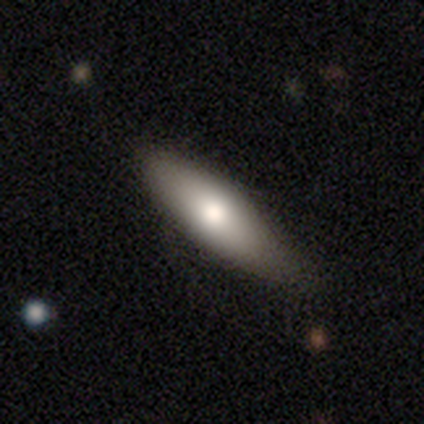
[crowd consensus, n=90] Smooth or featured: smooth — 71% (featured or disk — 20%)
How rounded: cigar-shaped — 53% (in between — 47%)
Merging: none — 62% (minor disturbance — 32%)